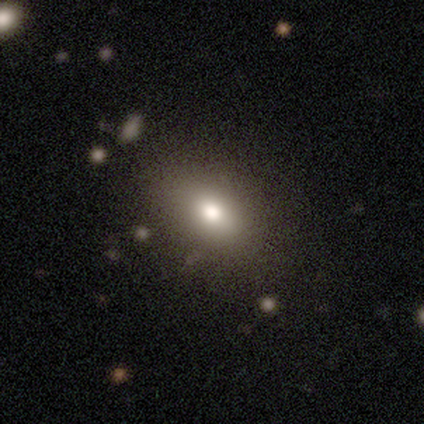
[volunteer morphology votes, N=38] A smooth galaxy with no disk features (87%) that is in between round and cigar-shaped (85%). Merging: none (49%).